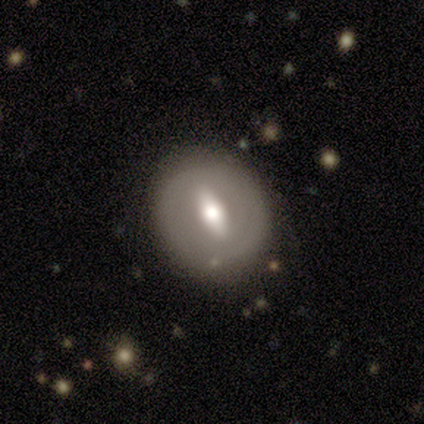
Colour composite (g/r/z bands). It shows a featured or disk galaxy (60%) with a strong bar (67%), no spiral arms (100%) and a moderate central bulge (67%). Merging: none (100%).